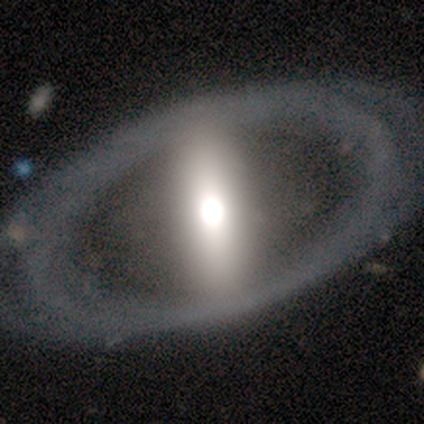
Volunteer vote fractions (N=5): Morphology: type=smooth (60%); roundness=in between (67%); merging=none (80%).